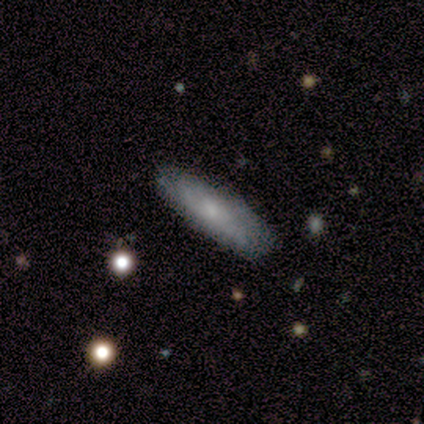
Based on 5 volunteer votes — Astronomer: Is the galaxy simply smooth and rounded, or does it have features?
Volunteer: featured or disk — 80%.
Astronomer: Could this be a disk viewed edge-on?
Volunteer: yes — 75%.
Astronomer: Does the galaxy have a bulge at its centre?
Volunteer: none — 67%.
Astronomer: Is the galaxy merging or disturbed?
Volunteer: none — 60%.